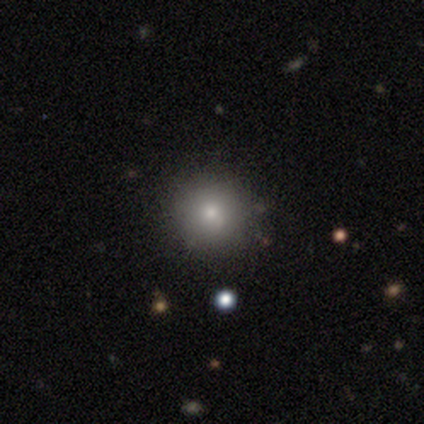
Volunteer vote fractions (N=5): Volunteers were most divided on "smooth or featured": smooth: 80%, star or artifact: 20%, featured or disk: 0%. More confident: how rounded — round (100%); merging — none (100%).